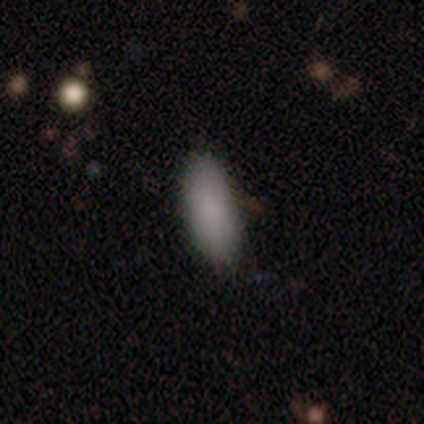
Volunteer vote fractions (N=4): Q: Smooth or featured?
A: smooth (75%); runner-up: star or artifact (25%)
Q: How rounded?
A: in between (100%)
Q: Merging?
A: none (67%); runner-up: minor disturbance (33%)